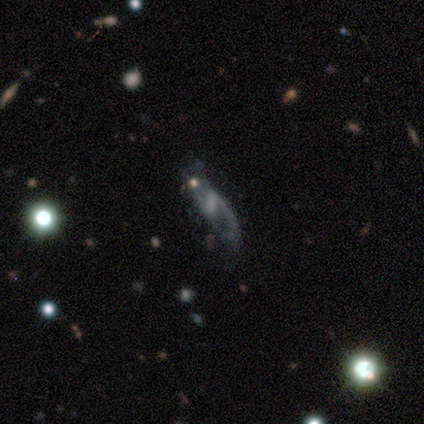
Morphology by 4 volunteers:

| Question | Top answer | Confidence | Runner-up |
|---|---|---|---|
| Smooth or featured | featured or disk | 75% | smooth (25%) |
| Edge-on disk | no | 100% | — |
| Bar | strong | 67% | weak (33%) |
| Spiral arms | yes | 67% | no (33%) |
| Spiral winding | loose | 100% | — |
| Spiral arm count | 2 | 100% | — |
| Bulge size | none | 67% | moderate (33%) |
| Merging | none | 50% | tied: minor disturbance (50%) |